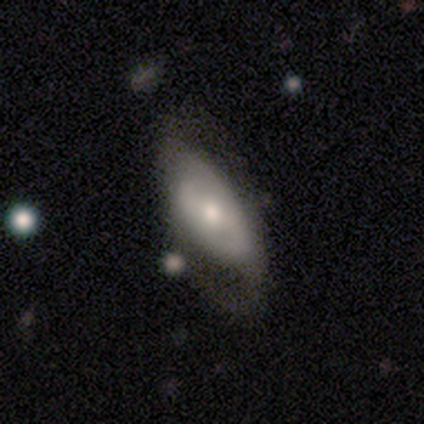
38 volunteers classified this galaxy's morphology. Volunteers were most divided on "bar": no: 45%, weak: 30%, strong: 25%. More confident: edge-on disk — no (83%); spiral arms — yes (80%); spiral arm count — 2 (75%); smooth or featured — featured or disk (63%); merging — none (63%); spiral winding — medium (62%); bulge size — moderate (55%).